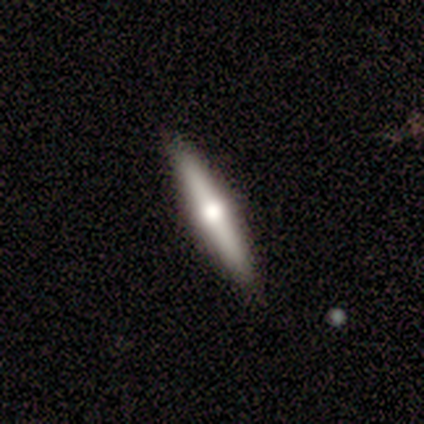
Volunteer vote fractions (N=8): This appears to be a smooth galaxy with no disk features (50%) that is cigar-shaped (100%). Merging: none (86%).